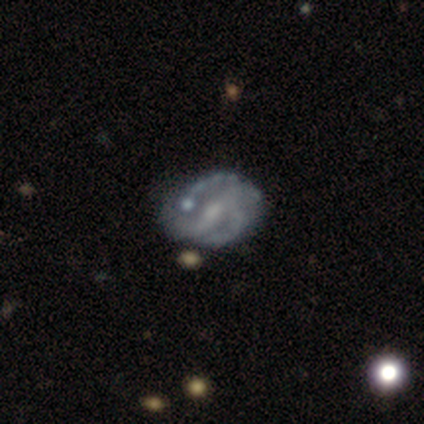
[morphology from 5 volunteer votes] This is clearly a featured or disk galaxy (100%). It is clearly not viewed edge-on (100%). Bar: likely strong (60%). Spiral arm pattern: clearly yes (100%). Spiral arm count: clearly 2 (80%). Spiral winding: likely medium (60%). Central bulge: marginally moderate (40%, tied with none). Merging: likely minor disturbance (60%).